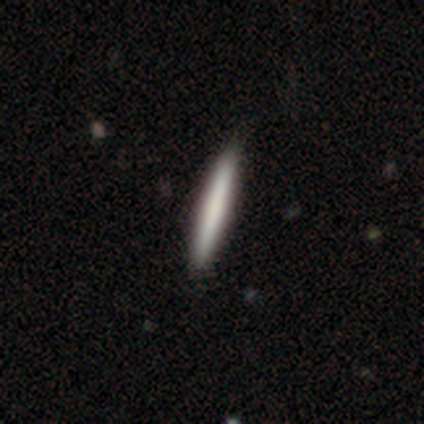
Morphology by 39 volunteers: Smooth or featured: smooth — 74% (featured or disk — 26%)
How rounded: cigar-shaped — 93% (round — 7%)
Merging: none — 51% (merger — 5%)